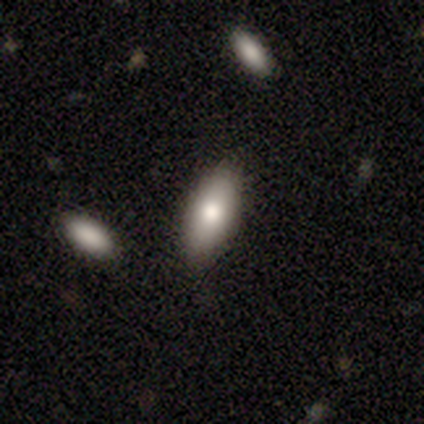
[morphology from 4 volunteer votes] Smooth or featured? 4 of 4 (100%) said smooth. How rounded? 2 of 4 (50%, tied with cigar-shaped) said in between. Merging? 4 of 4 (100%) said none.